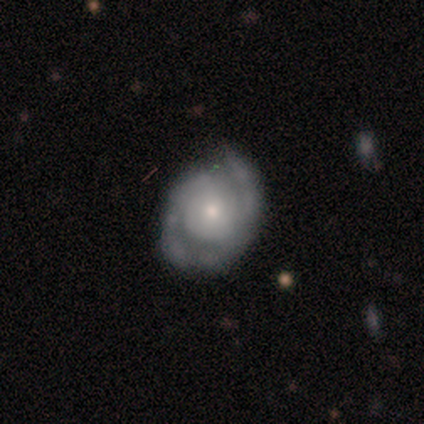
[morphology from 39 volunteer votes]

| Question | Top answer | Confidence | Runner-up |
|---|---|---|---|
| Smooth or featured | featured or disk | 77% | smooth (15%) |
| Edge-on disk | no | 97% | yes (3%) |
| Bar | no | 76% | weak (17%) |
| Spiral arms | yes | 83% | no (17%) |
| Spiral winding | tight | 46% | tied: medium (46%) |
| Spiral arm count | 2 | 42% | 1 (29%) |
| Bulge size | small | 62% | moderate (28%) |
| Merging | none | 64% | minor disturbance (28%) |